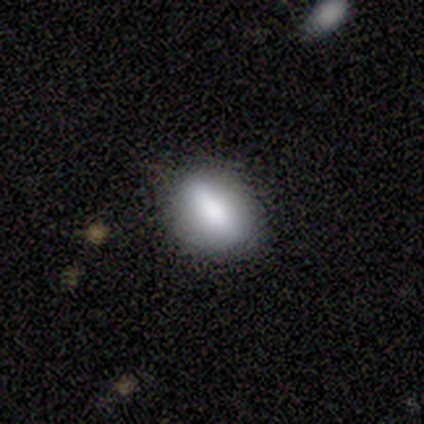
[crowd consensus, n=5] Smooth or featured: smooth — 60% (featured or disk — 40%)
How rounded: in between — 100%
Merging: none — 80% (minor disturbance — 20%)